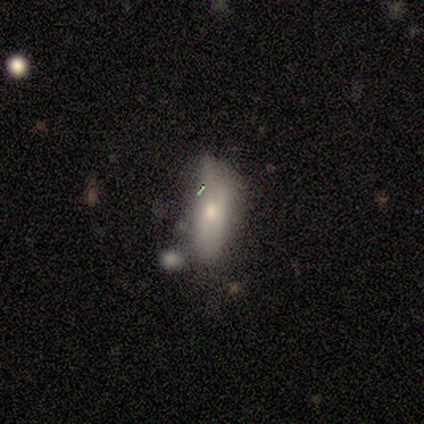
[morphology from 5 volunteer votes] Volunteers were most divided on "merging": minor disturbance: 60%, none: 20%, merger: 20%, major disturbance: 0%. More confident: smooth or featured — smooth (100%); how rounded — in between (80%).